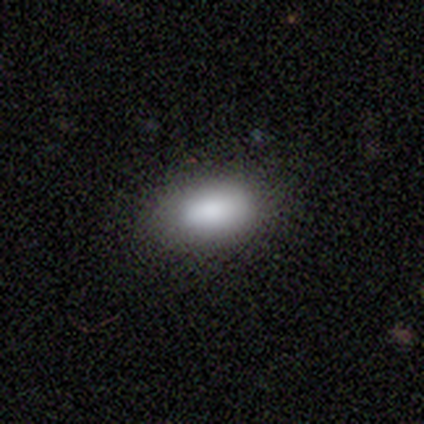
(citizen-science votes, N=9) Smooth or featured? smooth (100%)
How rounded? in between (89%)
Merging? none (78%)